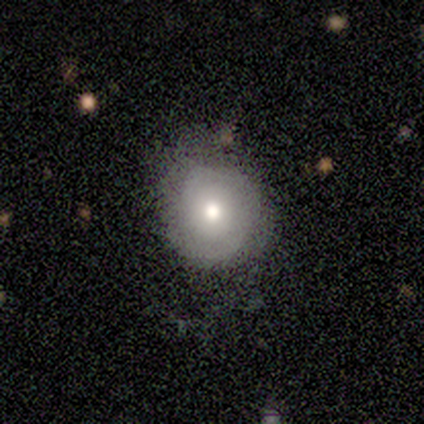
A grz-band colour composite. It shows a featured or disk galaxy (47%) with no bar (100%), 2 (60%) tight (80%) spiral arms (71%) and a moderate central bulge (57%). Merging: none (85%).